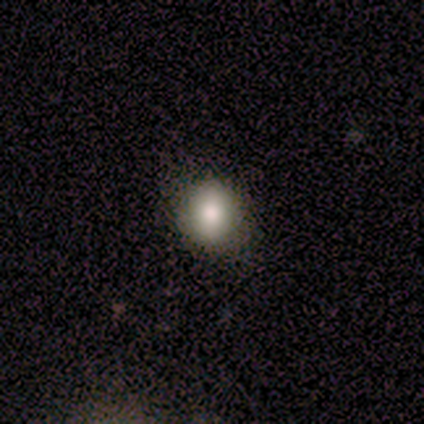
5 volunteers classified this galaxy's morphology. Smooth or featured? 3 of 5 (60%) said smooth. How rounded? 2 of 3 (67%) said round. Merging? 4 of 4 (100%) said none.